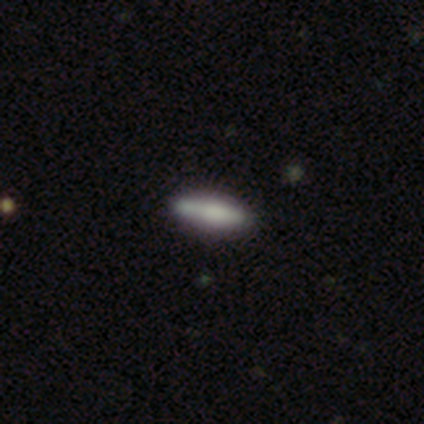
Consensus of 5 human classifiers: A smooth galaxy with no disk features (80%) that is in between round and cigar-shaped (50%, tied with cigar-shaped). Merging: none (100%).